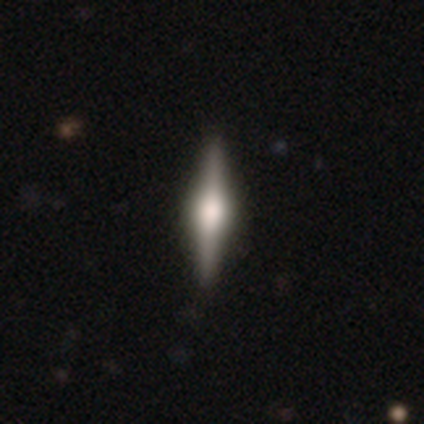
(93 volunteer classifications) A featured or disk galaxy (74%) viewed edge-on (97%) with a rounded central bulge (81%).

Vote fractions:
- Smooth or featured? featured or disk: 74% / smooth: 17% / star or artifact: 9%
- Edge-on disk? yes: 97% / no: 3%
- Edge-on bulge? rounded: 81% / boxy: 19% / none: 0%
- Merging? none: 89% / minor disturbance: 8% / major disturbance: 2% / merger: 0%